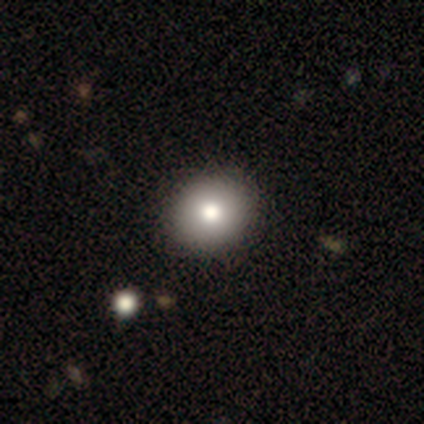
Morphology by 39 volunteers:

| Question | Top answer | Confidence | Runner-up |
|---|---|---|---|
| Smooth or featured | smooth | 90% | featured or disk (5%) |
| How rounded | round | 80% | in between (20%) |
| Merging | none | 65% | — |